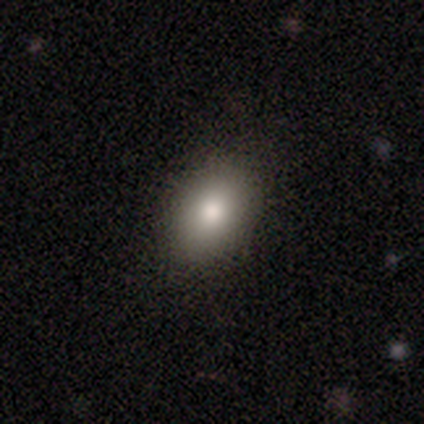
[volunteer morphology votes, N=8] This is likely a smooth galaxy (75%). How rounded: clearly in between (83%). Merging: clearly none (100%).